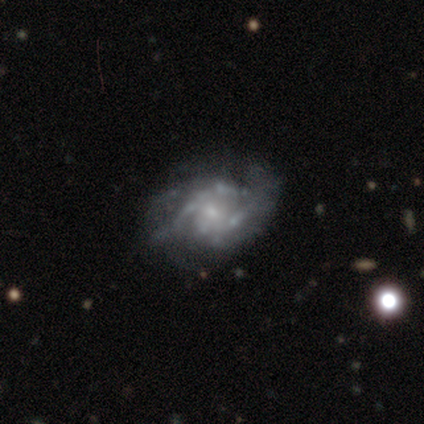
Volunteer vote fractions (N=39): This appears to be a featured or disk galaxy (87%) with no bar (71%), tight (48%) spiral arms (74%) and a small central bulge (85%). Merging: none (64%).